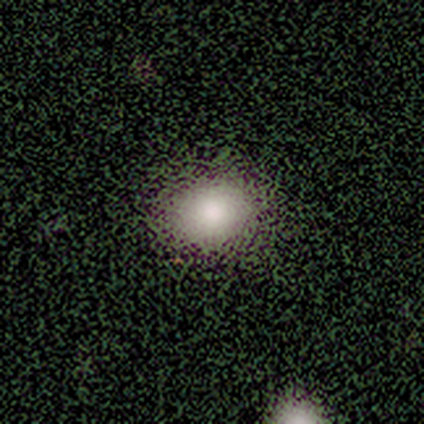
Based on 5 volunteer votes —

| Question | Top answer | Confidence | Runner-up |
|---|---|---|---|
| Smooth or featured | smooth | 100% | — |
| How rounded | round | 60% | in between (40%) |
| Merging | none | 80% | major disturbance (20%) |